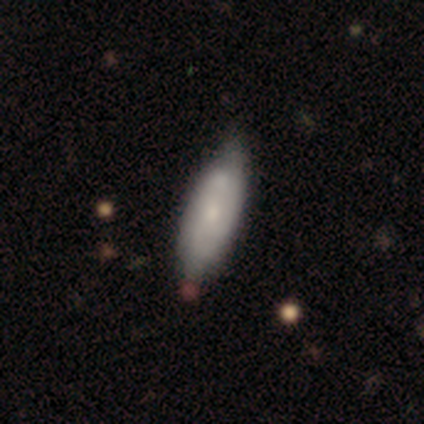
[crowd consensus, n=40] Smooth or featured? smooth (55%)
How rounded? in between (77%)
Merging? none (47%)